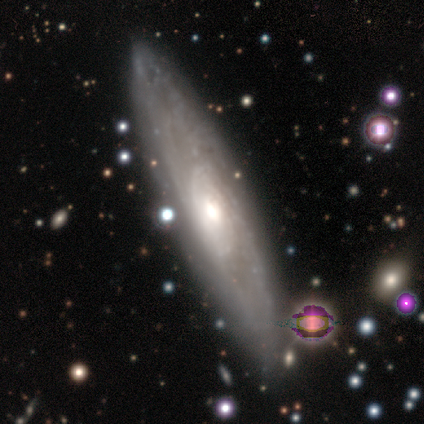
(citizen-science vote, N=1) Q: Smooth or featured?
A: featured or disk (100%)
Q: Edge-on disk?
A: no (100%)
Q: Bar?
A: no (100%)
Q: Spiral arms?
A: yes (100%)
Q: Spiral winding?
A: medium (100%)
Q: Spiral arm count?
A: 2 (100%)
Q: Bulge size?
A: moderate (100%)
Q: Merging?
A: none (100%)